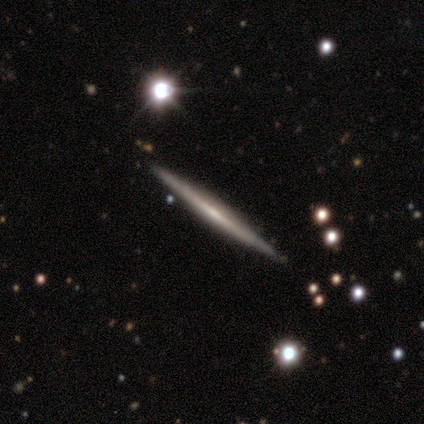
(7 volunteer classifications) Overall: featured or disk (71%). Edge-on disk: yes (100%). Edge-on bulge: none (60%; boxy 20%). Merging: none (100%).